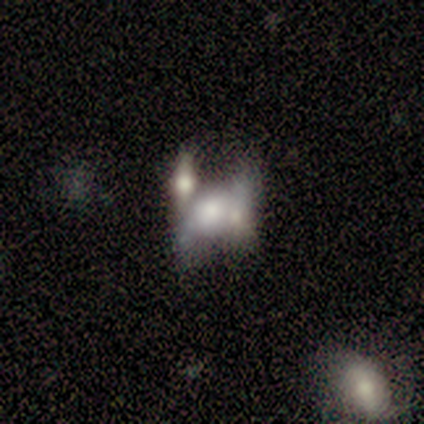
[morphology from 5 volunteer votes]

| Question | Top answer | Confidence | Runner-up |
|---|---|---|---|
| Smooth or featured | featured or disk | 60% | smooth (40%) |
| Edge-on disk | no | 100% | — |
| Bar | no | 100% | — |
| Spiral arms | no | 67% | yes (33%) |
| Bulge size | dominant | 33% | tied: moderate (33%), none (33%) |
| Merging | none | 40% | tied: merger (40%) |